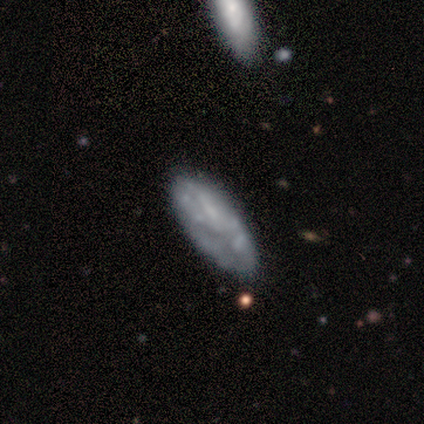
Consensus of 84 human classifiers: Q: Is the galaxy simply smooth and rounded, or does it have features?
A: featured or disk — 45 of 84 (54%).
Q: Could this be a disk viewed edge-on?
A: no — 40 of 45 (89%).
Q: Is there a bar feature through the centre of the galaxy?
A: no — 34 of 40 (85%).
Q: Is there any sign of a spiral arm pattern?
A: no — 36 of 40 (90%).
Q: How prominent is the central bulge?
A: none — 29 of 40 (72%).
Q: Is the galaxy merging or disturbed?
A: none — 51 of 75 (68%).